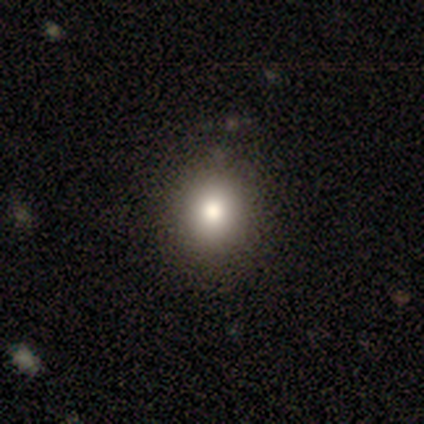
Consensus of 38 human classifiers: This is likely a smooth galaxy (76%). How rounded: clearly round (90%). Merging: likely none (66%).